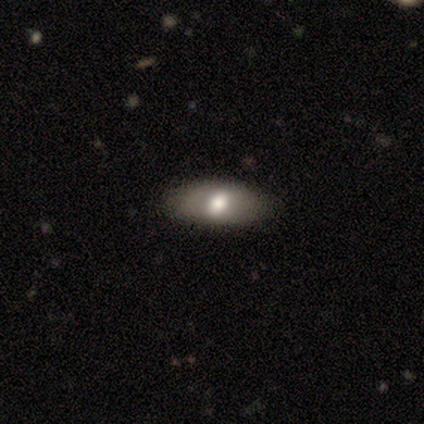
Smooth or featured? 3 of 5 (60%) said smooth. How rounded? 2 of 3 (67%) said in between. Merging? 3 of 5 (60%) said none.